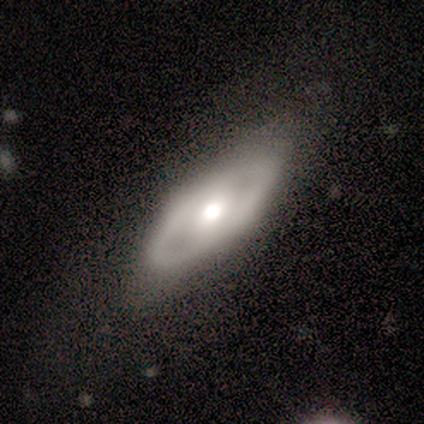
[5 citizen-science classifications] Q: Smooth or featured?
A: smooth (60%); runner-up: featured or disk (40%)
Q: How rounded?
A: in between (100%)
Q: Merging?
A: none (80%); runner-up: minor disturbance (20%)